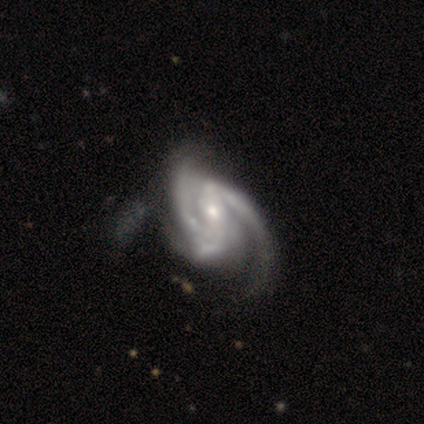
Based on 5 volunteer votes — Smooth or featured? 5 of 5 (100%) said featured or disk. Edge-on disk? 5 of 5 (100%) said no. Bar? 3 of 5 (60%) said strong. Spiral arms? 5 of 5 (100%) said yes. Spiral winding? 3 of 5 (60%) said medium. Spiral arm count? 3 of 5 (60%) said 2. Bulge size? 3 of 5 (60%) said small. Merging? 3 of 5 (60%) said minor disturbance.